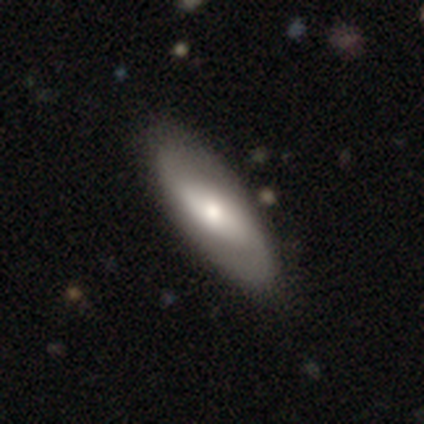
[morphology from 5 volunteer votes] smooth 60%, featured or disk 40%, star or artifact 0%. Down the decision tree: how rounded — in between (100%); merging — none (80%).